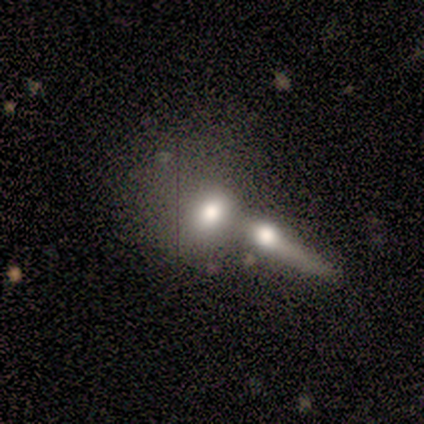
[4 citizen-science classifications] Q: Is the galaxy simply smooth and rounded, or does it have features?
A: smooth — 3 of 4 (75%).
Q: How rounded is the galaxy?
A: in between — 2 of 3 (67%).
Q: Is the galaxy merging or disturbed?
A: merger — 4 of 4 (100%).